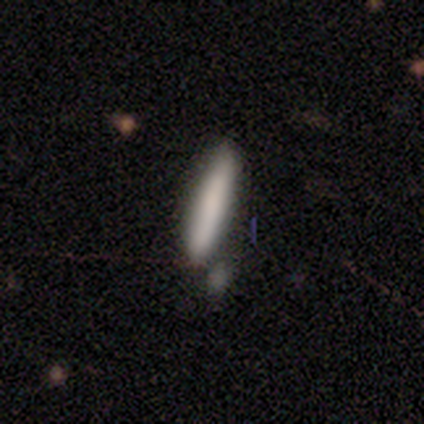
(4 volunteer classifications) smooth_or_featured: smooth (p=0.75) [alt: star or artifact p=0.25]
how_rounded: cigar-shaped (p=1.00)
merging: none (p=1.00)